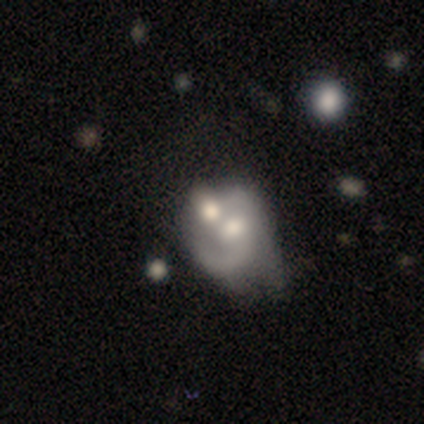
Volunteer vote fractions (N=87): Morphology: type=featured or disk (60%); edge-on=no (96%); bar=no (74%); spiral arms=no (54%); bulge=moderate (68%); merging=merger (45%).